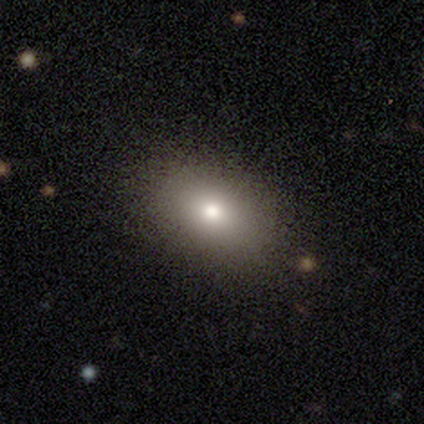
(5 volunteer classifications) Overall: smooth (60%; featured or disk 20%). How rounded: in between (100%). Merging: none (100%).